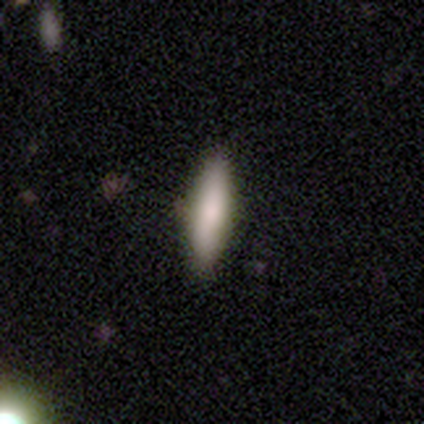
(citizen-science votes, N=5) A smooth galaxy with no disk features (100%) that is cigar-shaped (60%). Merging: none (100%).